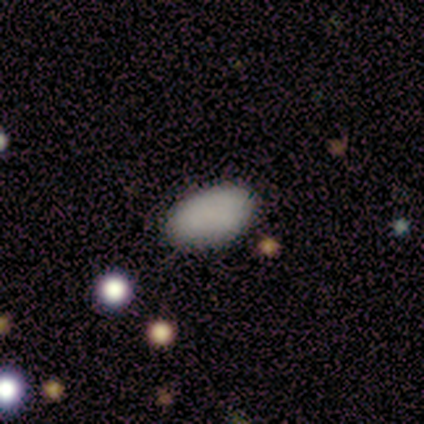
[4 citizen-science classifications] Smooth or featured?
  - smooth: 100% *
  - featured or disk: 0%
  - star or artifact: 0%
How rounded?
  - in between: 100% *
  - round: 0%
  - cigar-shaped: 0%
Merging?
  - none: 75% *
  - minor disturbance: 25%
  - major disturbance: 0%
  - merger: 0%